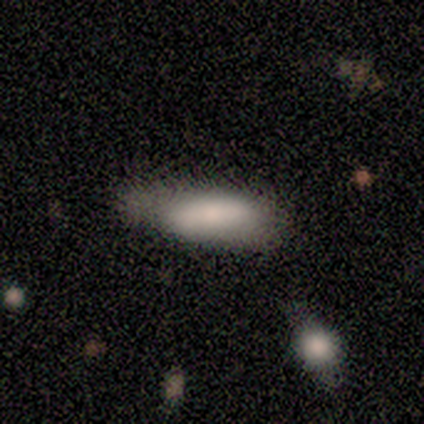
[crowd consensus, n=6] smooth_or_featured: smooth (p=1.00)
how_rounded: in between (p=0.50) [tied with: cigar-shaped p=0.50]
merging: none (p=0.50) [tied with: minor disturbance p=0.50]